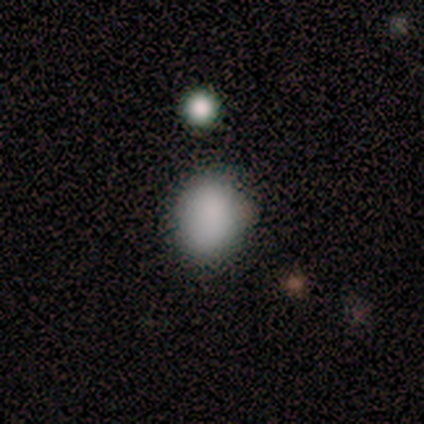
Overall: smooth (100%). How rounded: round (100%). Merging: none (67%; minor disturbance 33%).